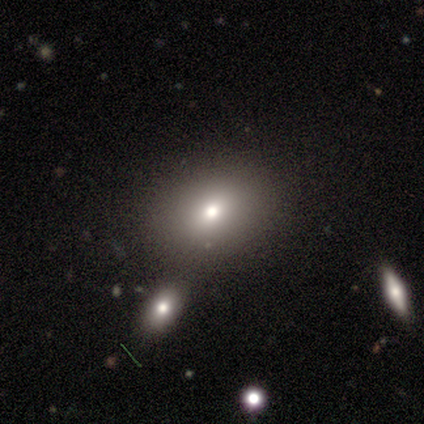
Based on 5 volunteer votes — This appears to be a smooth galaxy with no disk features (40%, tied with featured or disk) that is round (50%, tied with in between). Merging: none (50%).